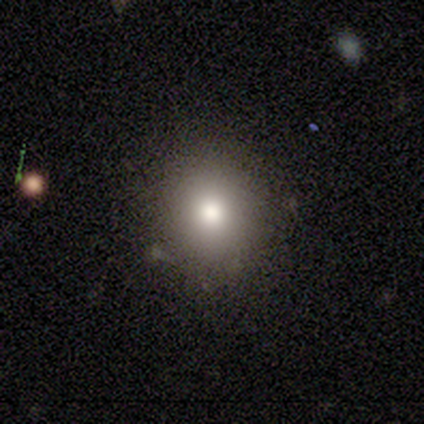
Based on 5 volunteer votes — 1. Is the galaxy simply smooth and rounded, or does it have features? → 100% smooth, 0% featured or disk, 0% star or artifact.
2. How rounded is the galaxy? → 80% round, 20% in between, 0% cigar-shaped.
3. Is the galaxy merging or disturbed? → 80% none, 20% minor disturbance, 0% major disturbance, 0% merger.